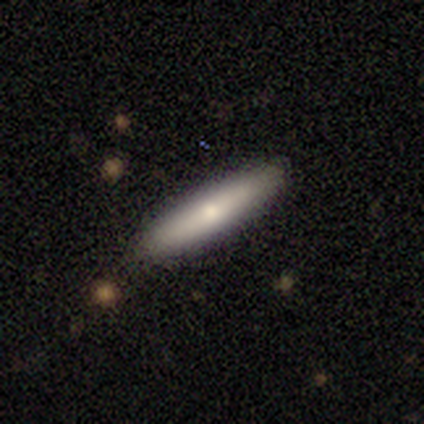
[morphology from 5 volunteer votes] Smooth or featured? 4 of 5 (80%) said smooth. How rounded? 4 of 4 (100%) said cigar-shaped. Merging? 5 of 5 (100%) said none.